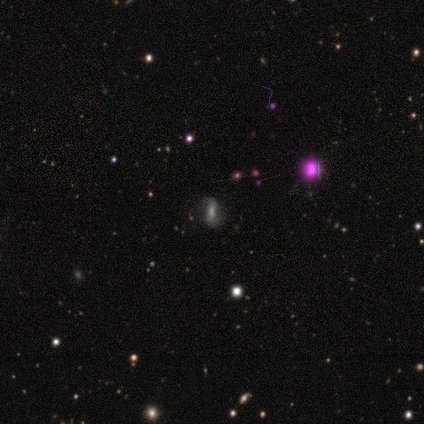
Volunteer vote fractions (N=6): Morphology: type=featured or disk (50%); edge-on=no (100%); bar=strong (33%, tied with weak and no); spiral arms=yes (67%); winding=loose (100%); arm count=2 (100%); bulge=moderate (33%, tied with small and none); merging=none (50%, tied with minor disturbance).